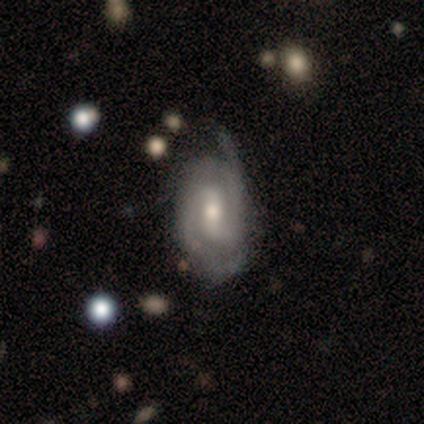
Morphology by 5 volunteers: smooth-or-featured: featured or disk: 100% | smooth: 0% | star or artifact: 0%
  disk-edge-on: no: 100% | yes: 0%
    bar: weak: 40% (tied) | no: 40% (tied) | strong: 20%
    has-spiral-arms: yes: 100% | no: 0%
      spiral-winding: medium: 60% | tight: 40% | loose: 0%
      spiral-arm-count: 2: 40% (tied) | can't tell: 40% (tied) | 1: 20% | 3: 0% | 4: 0% | more than 4: 0%
    bulge-size: moderate: 80% | small: 20% | dominant: 0% | large: 0% | none: 0%
  merging: none: 60% | minor disturbance: 40% | major disturbance: 0% | merger: 0%